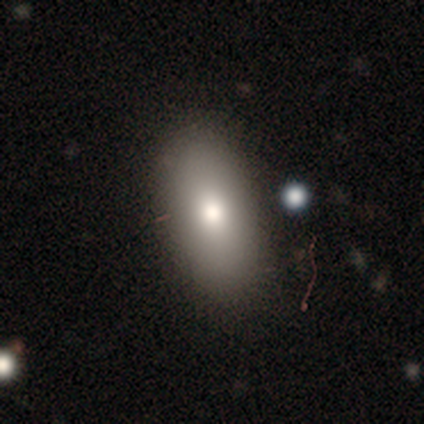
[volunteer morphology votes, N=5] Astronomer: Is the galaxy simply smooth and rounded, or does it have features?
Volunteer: smooth — 100%.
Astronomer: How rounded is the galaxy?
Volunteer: in between — 100%.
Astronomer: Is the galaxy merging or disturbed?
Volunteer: none — 60%.